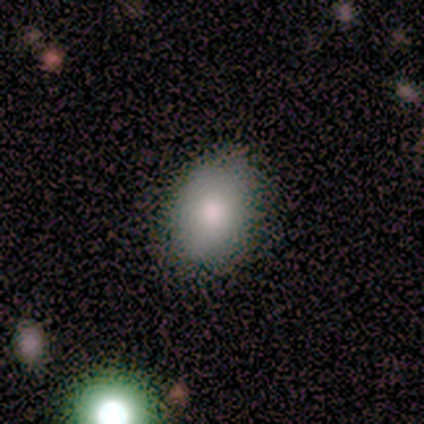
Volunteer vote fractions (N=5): Volunteers were most divided on "smooth or featured": smooth: 80%, star or artifact: 20%, featured or disk: 0%. More confident: how rounded — in between (100%); merging — none (100%).